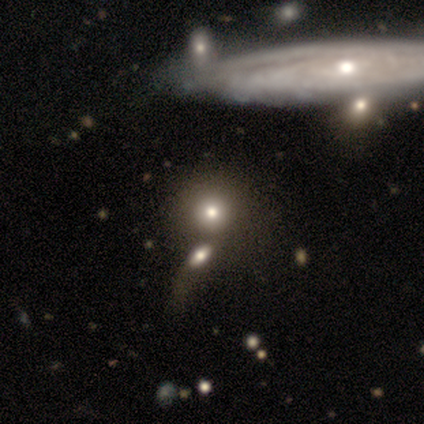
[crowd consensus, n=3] A smooth galaxy with no disk features (100%) that is round (67%).

Vote fractions:
- Smooth or featured? smooth: 100% / featured or disk: 0% / star or artifact: 0%
- How rounded? round: 67% / in between: 33% / cigar-shaped: 0%
- Merging? none: 33% (tied) / major disturbance: 33% (tied) / merger: 33% (tied) / minor disturbance: 0%